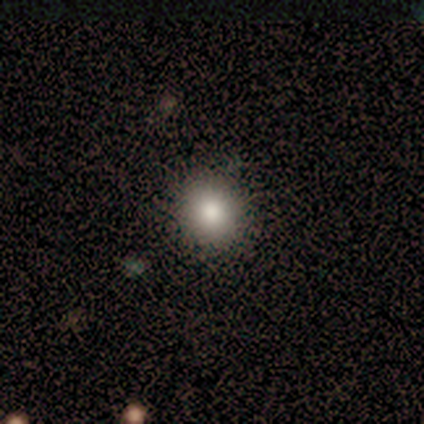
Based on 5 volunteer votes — Morphology: type=smooth (100%); roundness=round (100%); merging=none (80%).